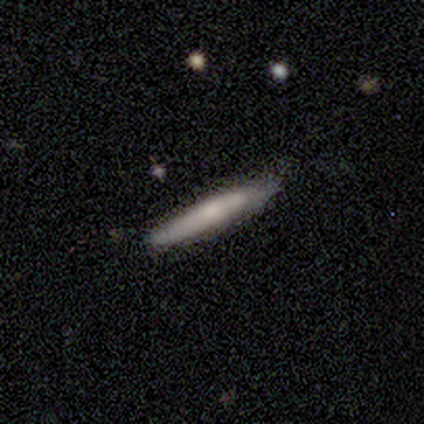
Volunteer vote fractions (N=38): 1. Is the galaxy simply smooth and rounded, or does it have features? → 63% smooth, 34% featured or disk, 3% star or artifact.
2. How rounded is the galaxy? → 96% cigar-shaped, 4% in between, 0% round.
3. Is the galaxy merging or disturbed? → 73% none, 24% minor disturbance, 3% merger, 0% major disturbance.